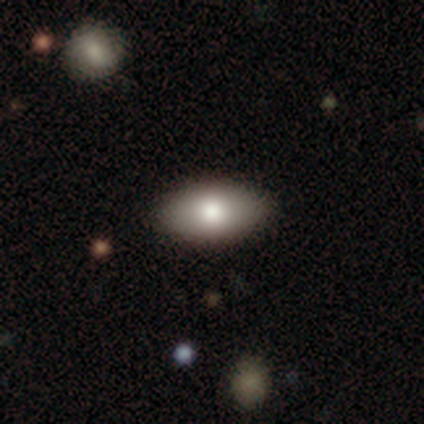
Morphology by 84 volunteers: Smooth or featured?
  - smooth: 80% *
  - featured or disk: 13%
  - star or artifact: 7%
How rounded?
  - in between: 93% *
  - round: 6%
  - cigar-shaped: 1%
Merging?
  - none: 86% *
  - minor disturbance: 10%
  - major disturbance: 3%
  - merger: 1%